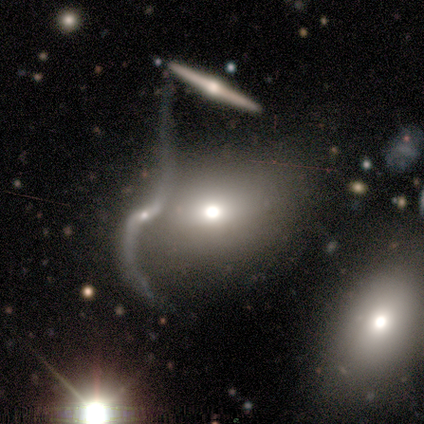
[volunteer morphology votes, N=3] Overall: smooth (100%). How rounded: in between (67%; round 33%). Merging: merger (67%; none 33%).